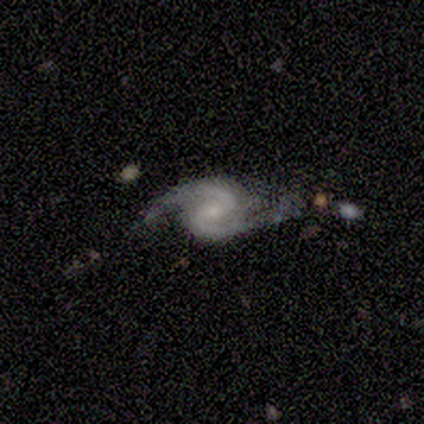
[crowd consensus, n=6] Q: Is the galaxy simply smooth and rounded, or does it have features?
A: featured or disk — 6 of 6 (100%).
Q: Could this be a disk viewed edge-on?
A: no — 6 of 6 (100%).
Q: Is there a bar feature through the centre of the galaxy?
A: strong — 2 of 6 (33%, tied with weak and no).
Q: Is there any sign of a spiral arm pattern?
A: yes — 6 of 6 (100%).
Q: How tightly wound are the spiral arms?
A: medium — 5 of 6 (83%).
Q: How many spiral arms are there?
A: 2 — 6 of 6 (100%).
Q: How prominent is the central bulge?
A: moderate — 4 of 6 (67%).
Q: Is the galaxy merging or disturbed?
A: none — 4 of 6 (67%).